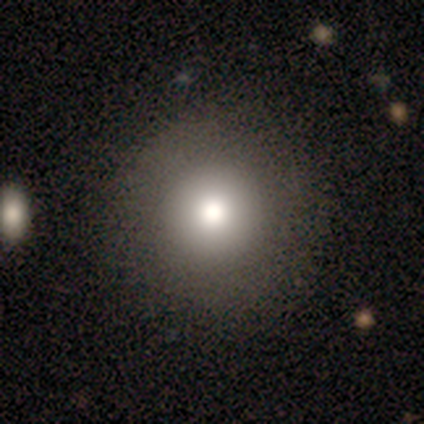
Smooth or featured? smooth (86%)
How rounded? round (100%)
Merging? none (100%)